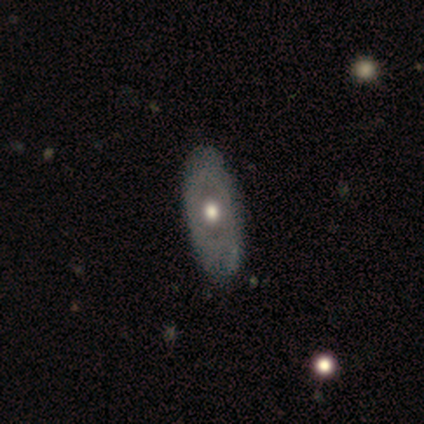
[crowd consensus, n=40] smooth 50%, featured or disk 48%, star or artifact 2%. Down the decision tree: how rounded — in between (90%); merging — none (69%).